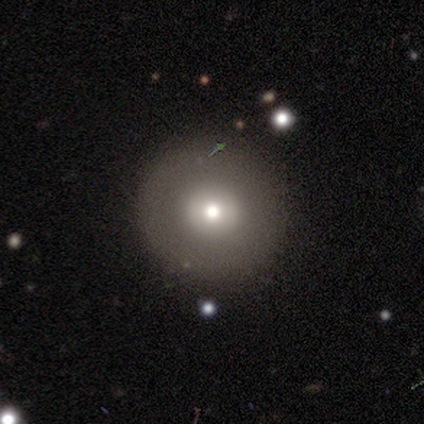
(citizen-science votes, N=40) A smooth galaxy with no disk features (55%) that is round (100%). Merging: none (97%).